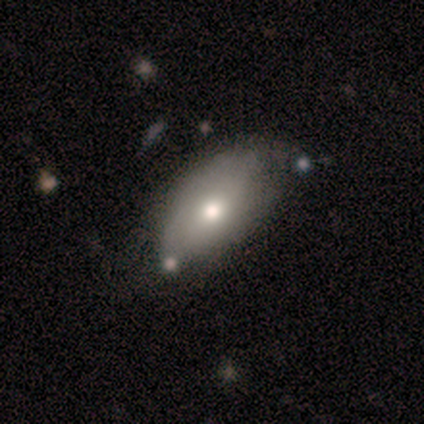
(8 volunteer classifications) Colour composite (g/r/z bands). It shows a smooth galaxy with no disk features (62%) that is in between round and cigar-shaped (100%). Merging: none (71%).